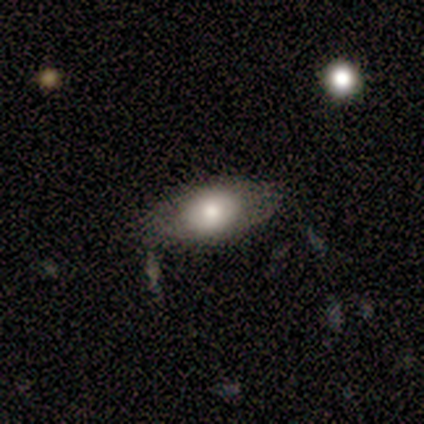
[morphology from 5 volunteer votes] A smooth galaxy with no disk features (40%, tied with featured or disk) that is in between round and cigar-shaped (50%, tied with cigar-shaped).

Vote fractions:
- Smooth or featured? smooth: 40% (tied) / featured or disk: 40% (tied) / star or artifact: 20%
- How rounded? in between: 50% (tied) / cigar-shaped: 50% (tied) / round: 0%
- Merging? none: 75% / minor disturbance: 25% / major disturbance: 0% / merger: 0%